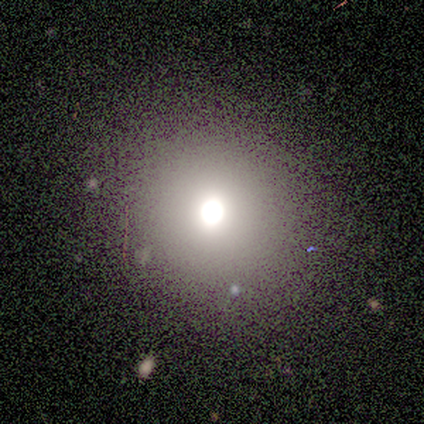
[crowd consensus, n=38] smooth-or-featured: smooth: 82% | featured or disk: 11% | star or artifact: 8%
  how-rounded: round: 81% | in between: 16% | cigar-shaped: 3%
  merging: none: 77% | minor disturbance: 11% | major disturbance: 9% | merger: 3%